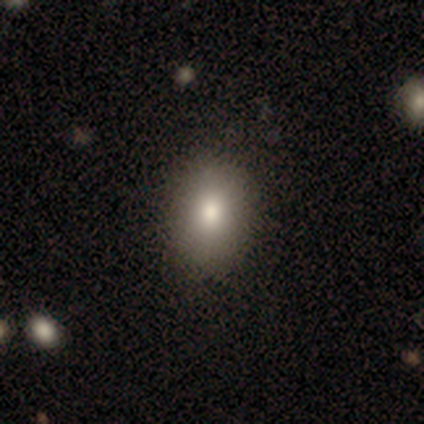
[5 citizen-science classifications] This appears to be a smooth galaxy with no disk features (80%) that is in between round and cigar-shaped (100%). Merging: none (80%).